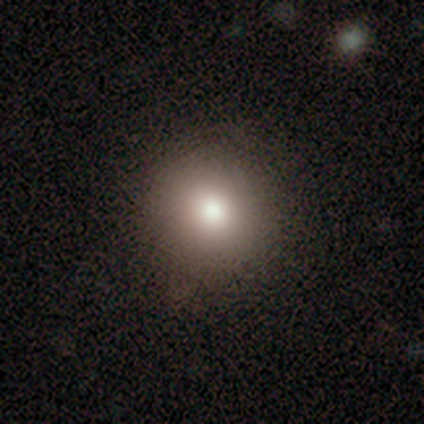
Smooth or featured? smooth (80%)
How rounded? round (75%)
Merging? none (100%)